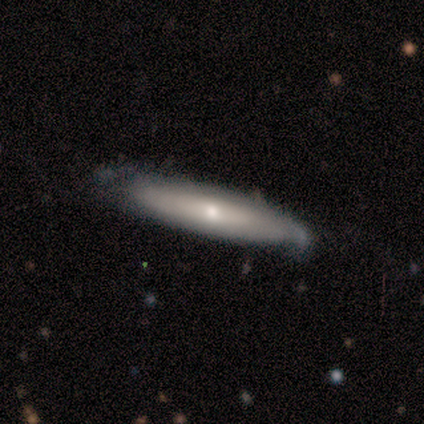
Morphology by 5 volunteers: Overall: featured or disk (60%; smooth 40%). Edge-on disk: yes (100%). Edge-on bulge: rounded (100%). Merging: minor disturbance (60%; none 40%).